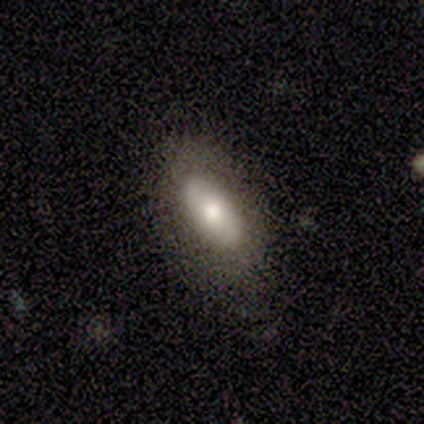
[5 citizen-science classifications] Overall: smooth (100%). How rounded: in between (100%). Merging: none (60%; minor disturbance 40%).